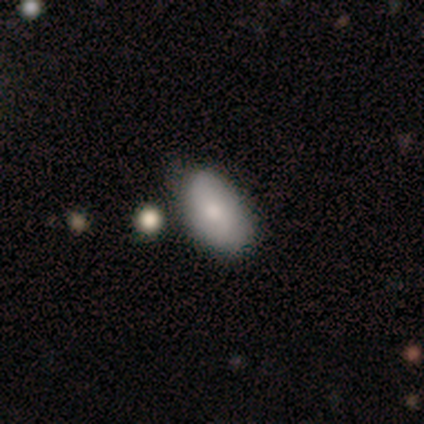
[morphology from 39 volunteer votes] Q: Smooth or featured?
A: smooth (82%); runner-up: featured or disk (10%)
Q: How rounded?
A: in between (97%); runner-up: cigar-shaped (3%)
Q: Merging?
A: none (67%); runner-up: minor disturbance (25%)